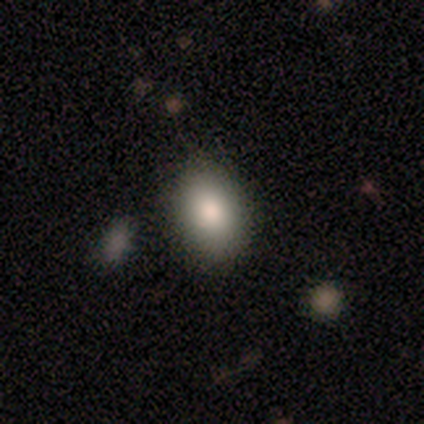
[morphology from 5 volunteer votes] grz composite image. It shows a smooth galaxy with no disk features (80%) that is in between round and cigar-shaped (100%). Merging: none (100%).